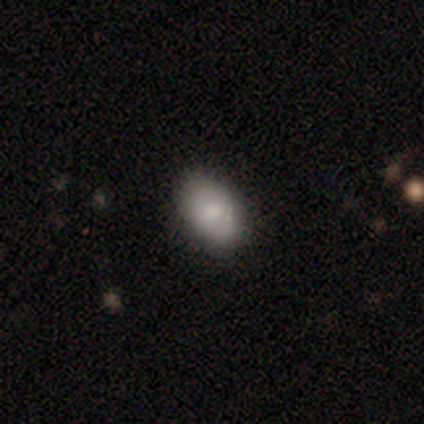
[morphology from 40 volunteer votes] Smooth or featured? smooth (78%)
How rounded? in between (84%)
Merging? none (62%)